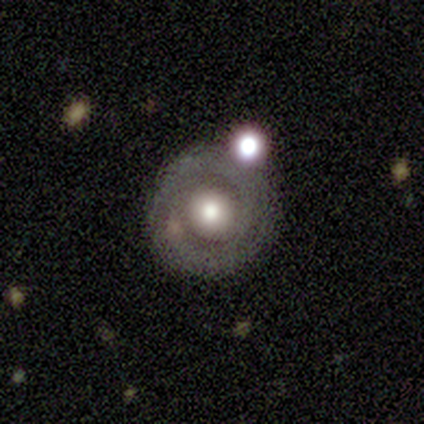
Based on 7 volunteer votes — Q: Smooth or featured?
A: featured or disk (57%); runner-up: smooth (29%)
Q: Edge-on disk?
A: no (100%)
Q: Bar?
A: no (100%)
Q: Spiral arms?
A: yes (50%); tied with: no (50%)
Q: Spiral winding?
A: tight (100%)
Q: Spiral arm count?
A: can't tell (100%)
Q: Bulge size?
A: large (75%); runner-up: moderate (25%)
Q: Merging?
A: none (83%); runner-up: minor disturbance (17%)